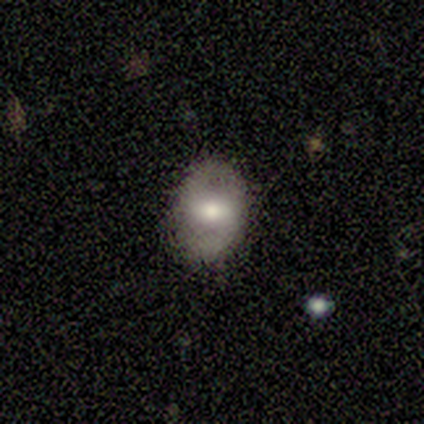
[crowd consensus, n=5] Smooth or featured?
  - smooth: 40% * (tied)
  - featured or disk: 40% * (tied)
  - star or artifact: 20%
How rounded?
  - in between: 100% *
  - round: 0%
  - cigar-shaped: 0%
Merging?
  - none: 75% *
  - minor disturbance: 25%
  - major disturbance: 0%
  - merger: 0%